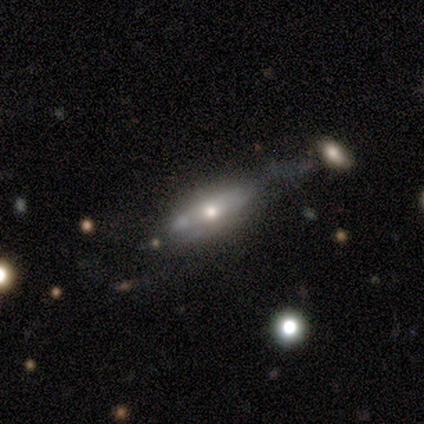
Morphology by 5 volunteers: A featured or disk galaxy (60%) with no bar (100%), no spiral arms (100%) and a moderate central bulge (50%, tied with small). Merging: minor disturbance (60%).